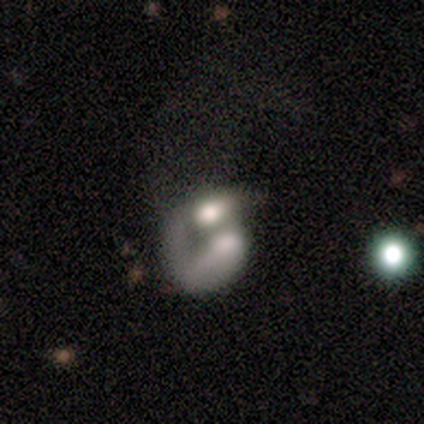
Overall: featured or disk (57%; smooth 43%). Edge-on disk: no (100%). Bar: no (100%). Spiral arms: no (75%). Bulge size: moderate (75%). Merging: merger (71%).